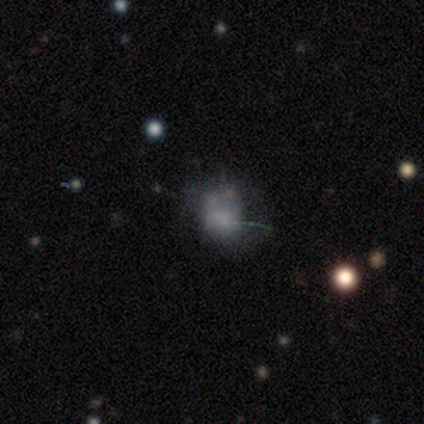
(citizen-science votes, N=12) smooth 58%, featured or disk 25%, star or artifact 17%. Down the decision tree: how rounded — round (57%); merging — none (50%).